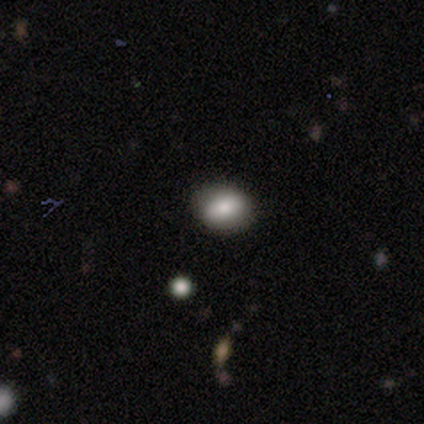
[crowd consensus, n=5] Smooth or featured: smooth — 80% (featured or disk — 20%)
How rounded: round — 50% (tied with in between — 50%)
Merging: none — 80% (merger — 20%)